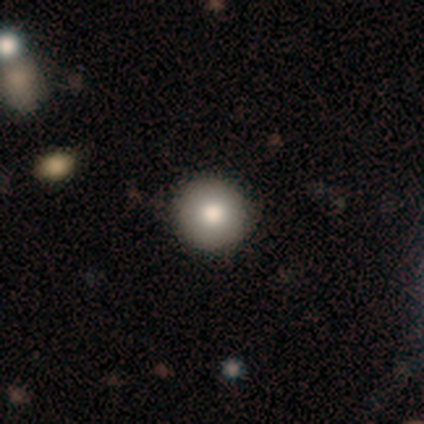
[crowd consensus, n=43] A smooth galaxy with no disk features (74%) that is round (97%).

Vote fractions:
- Smooth or featured? smooth: 74% / star or artifact: 19% / featured or disk: 7%
- How rounded? round: 97% / cigar-shaped: 3% / in between: 0%
- Merging? none: 97% / minor disturbance: 3% / major disturbance: 0% / merger: 0%